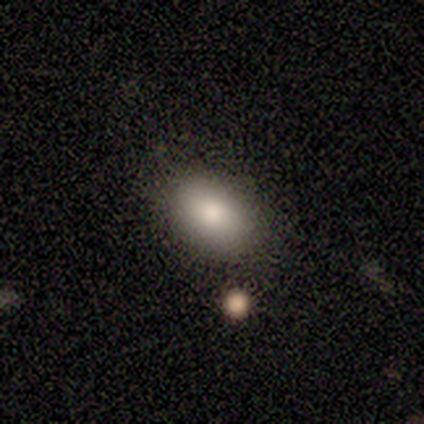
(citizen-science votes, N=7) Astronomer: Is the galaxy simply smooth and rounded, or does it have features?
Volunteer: smooth — 71%.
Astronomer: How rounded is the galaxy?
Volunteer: in between — 80%.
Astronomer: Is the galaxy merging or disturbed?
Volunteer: none — 80%.